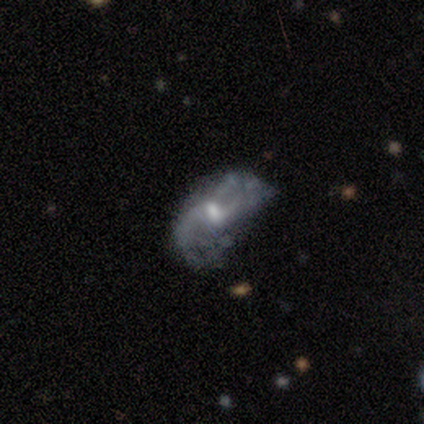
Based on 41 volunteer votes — Morphology: type=featured or disk (78%); edge-on=no (97%); bar=weak (55%); spiral arms=yes (74%); winding=loose (74%); arm count=2 (78%); bulge=moderate (65%); merging=none (42%).